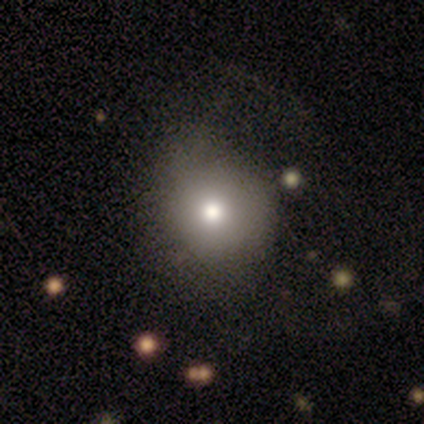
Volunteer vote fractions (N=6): Q: Smooth or featured?
A: smooth (100%)
Q: How rounded?
A: round (83%); runner-up: in between (17%)
Q: Merging?
A: none (83%); runner-up: minor disturbance (17%)